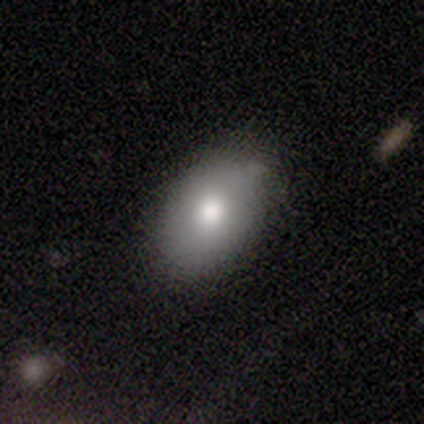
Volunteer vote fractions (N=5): smooth-or-featured: smooth: 80% | featured or disk: 20% | star or artifact: 0%
  how-rounded: in between: 100% | round: 0% | cigar-shaped: 0%
  merging: none: 60% | minor disturbance: 40% | major disturbance: 0% | merger: 0%